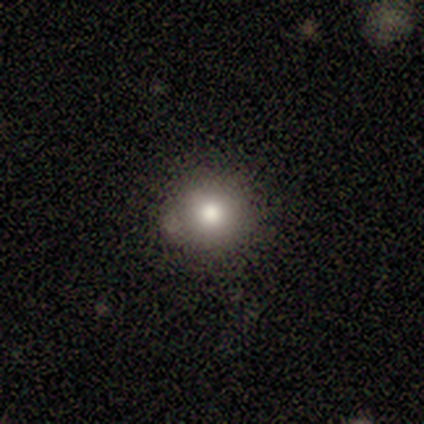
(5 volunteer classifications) Volunteers were most divided on "smooth or featured": smooth: 60%, star or artifact: 40%, featured or disk: 0%. More confident: how rounded — round (100%); merging — minor disturbance (67%).